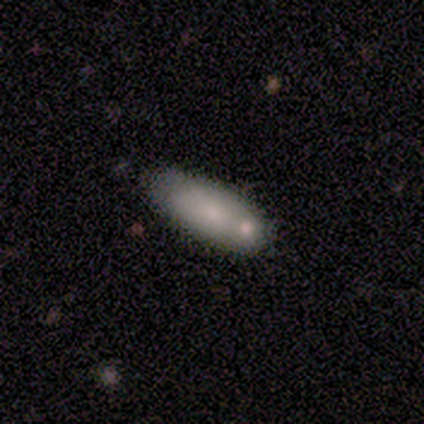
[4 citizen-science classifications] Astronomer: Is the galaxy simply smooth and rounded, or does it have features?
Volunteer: smooth — 50%.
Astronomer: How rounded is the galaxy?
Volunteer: cigar-shaped — 100%.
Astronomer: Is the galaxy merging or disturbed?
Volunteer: none — 100%.